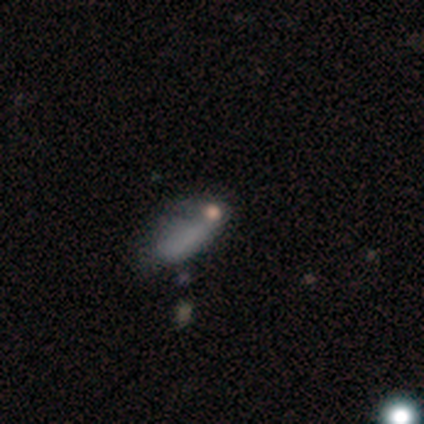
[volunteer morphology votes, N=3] Smooth or featured?
  - smooth: 100% *
  - featured or disk: 0%
  - star or artifact: 0%
How rounded?
  - in between: 67% *
  - cigar-shaped: 33%
  - round: 0%
Merging?
  - none: 67% *
  - major disturbance: 33%
  - minor disturbance: 0%
  - merger: 0%